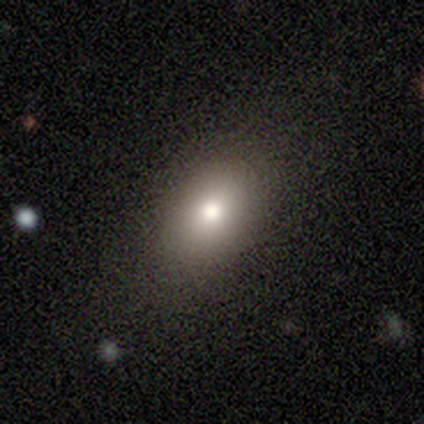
Smooth or featured? 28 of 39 (72%) said smooth. How rounded? 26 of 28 (93%) said in between. Merging? 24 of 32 (75%) said none.